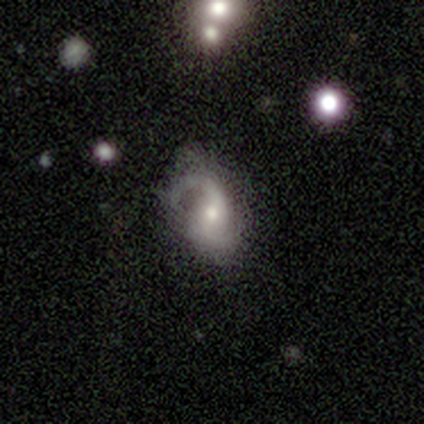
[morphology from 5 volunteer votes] type=smooth (40%, tied with featured or disk); roundness=in between (100%); merging=none (50%, tied with major disturbance).